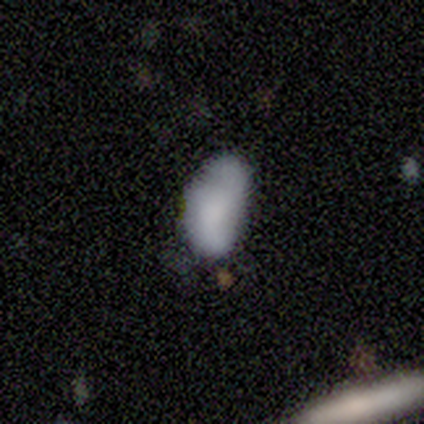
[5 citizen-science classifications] featured or disk 60%, smooth 40%, star or artifact 0%. Down the decision tree: edge-on disk — no (100%); bar — no (67%); spiral arms — yes (100%); spiral arm count — 2 (33%, tied with 3 and can't tell); spiral winding — medium (100%); bulge size — small (67%); merging — none (40%, tied with major disturbance).